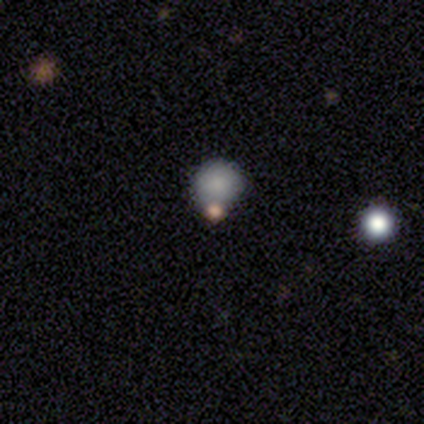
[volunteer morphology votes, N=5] smooth_or_featured: smooth (p=0.60) [alt: featured or disk p=0.40]
how_rounded: round (p=1.00)
merging: none (p=0.80) [alt: minor disturbance p=0.20]